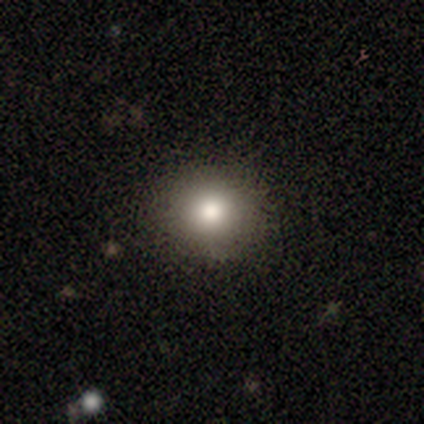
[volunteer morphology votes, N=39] Overall: smooth (77%). How rounded: round (93%). Merging: none (91%).